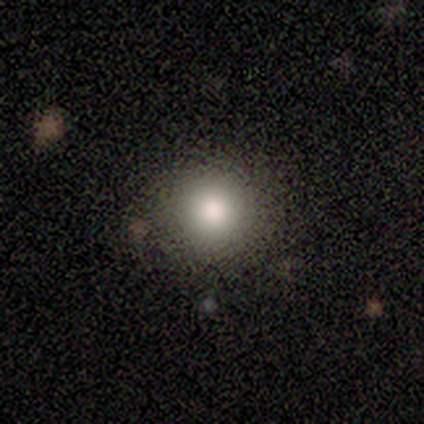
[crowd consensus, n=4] smooth-or-featured: smooth: 75% | star or artifact: 25% | featured or disk: 0%
  how-rounded: round: 100% | in between: 0% | cigar-shaped: 0%
  merging: none: 100% | minor disturbance: 0% | major disturbance: 0% | merger: 0%